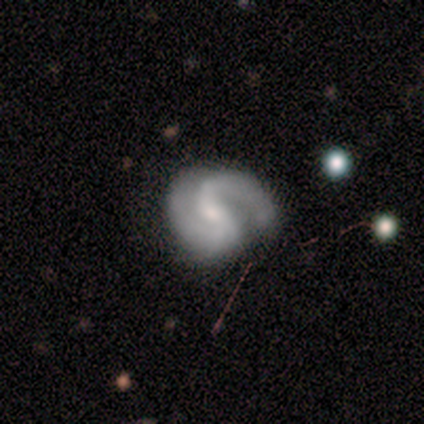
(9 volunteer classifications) This appears to be a featured or disk galaxy (100%) with a strong bar (44%, tied with no), 2 (100%) medium (56%) spiral arms (100%) and a small central bulge (89%). Merging: none (67%).